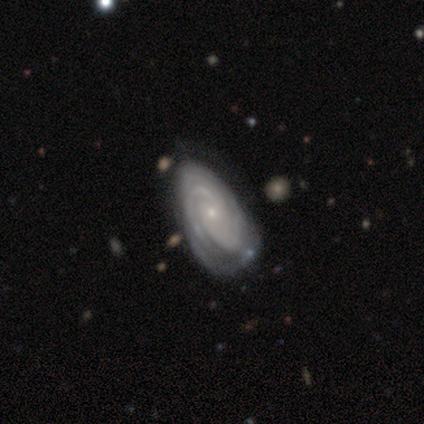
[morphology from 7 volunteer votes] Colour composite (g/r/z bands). It shows a featured or disk galaxy (100%) with no bar (57%), tight (86%) spiral arms (100%) and a small central bulge (86%). Merging: none (71%).